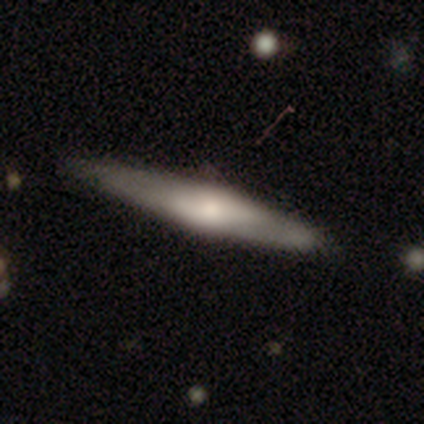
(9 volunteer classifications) Volunteers were most divided on "smooth or featured": featured or disk: 56%, smooth: 44%, star or artifact: 0%. More confident: merging — none (100%); edge-on disk — yes (80%); edge-on bulge — rounded (75%).